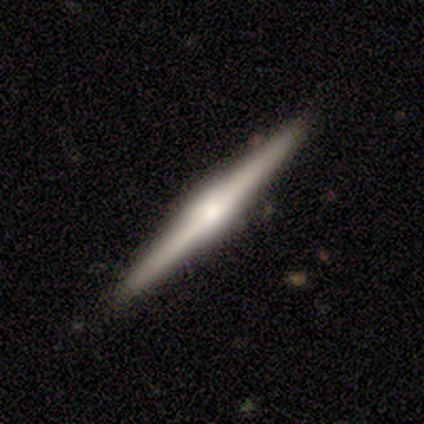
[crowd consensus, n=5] A featured or disk galaxy (80%) viewed edge-on (75%) with a rounded central bulge (67%). Merging: none (75%).